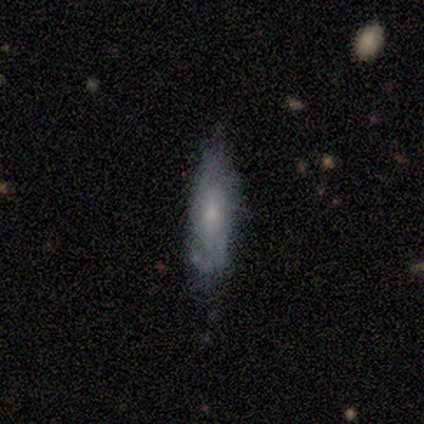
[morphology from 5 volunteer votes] Volunteers were most divided on "smooth or featured" (2-way tie): smooth: 40%, featured or disk: 40%, star or artifact: 20%. More confident: how rounded — cigar-shaped (100%); merging — minor disturbance (75%).